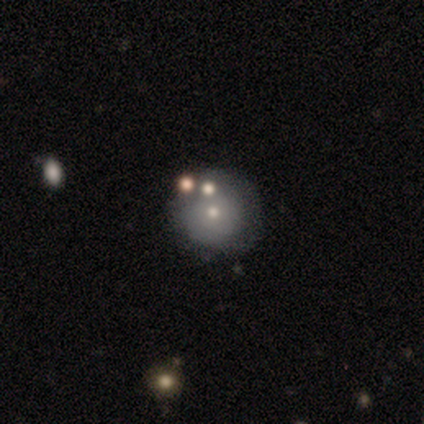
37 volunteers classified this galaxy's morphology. Overall: smooth (51%; featured or disk 38%). How rounded: round (95%). Merging: none (85%).